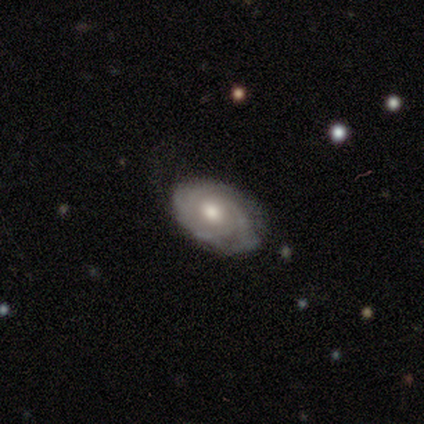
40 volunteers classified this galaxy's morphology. Volunteers were most divided on "spiral arm count": can't tell: 50%, 3: 22%, 2: 16%, 4: 6%, 1: 3%, more than 4: 3%. More confident: edge-on disk — no (100%); spiral arms — yes (91%); smooth or featured — featured or disk (88%); spiral winding — tight (75%); merging — none (74%); bulge size — moderate (71%); bar — no (69%).